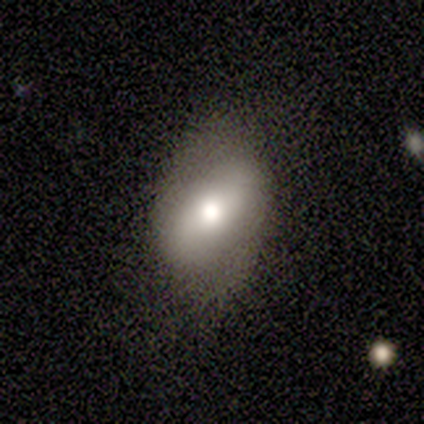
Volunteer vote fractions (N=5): A smooth galaxy with no disk features (100%) that is in between round and cigar-shaped (100%). Merging: none (60%).